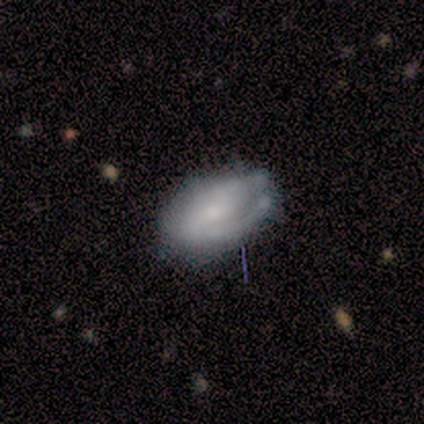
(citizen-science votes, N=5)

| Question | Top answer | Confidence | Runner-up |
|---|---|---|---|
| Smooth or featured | featured or disk | 80% | smooth (20%) |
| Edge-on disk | no | 100% | — |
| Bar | strong | 50% | tied: no (50%) |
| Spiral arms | yes | 50% | tied: no (50%) |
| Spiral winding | tight | 100% | — |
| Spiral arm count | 1 | 100% | — |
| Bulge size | small | 100% | — |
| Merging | none | 60% | minor disturbance (20%) |